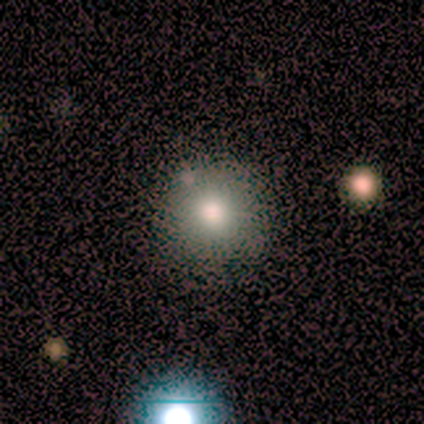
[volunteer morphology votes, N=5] This is clearly a smooth galaxy (80%). How rounded: clearly round (100%). Merging: clearly none (100%).